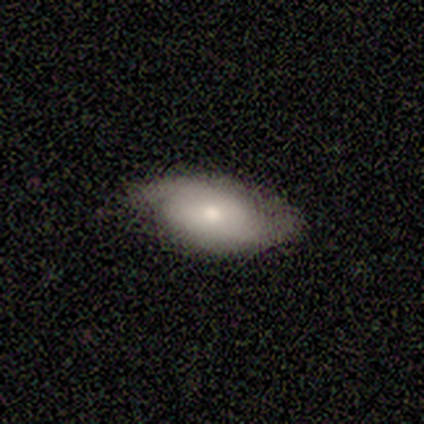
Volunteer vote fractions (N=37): Q: Smooth or featured?
A: smooth (43%); tied with: featured or disk (43%)
Q: How rounded?
A: in between (81%); runner-up: round (12%)
Q: Merging?
A: none (53%); runner-up: minor disturbance (28%)